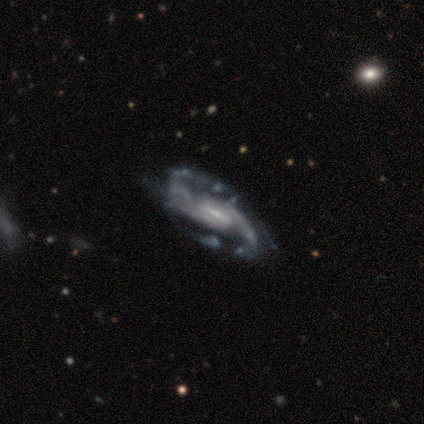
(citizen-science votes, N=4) smooth-or-featured: featured or disk: 100% | smooth: 0% | star or artifact: 0%
  disk-edge-on: no: 75% | yes: 25%
    bar: weak: 67% | strong: 33% | no: 0%
    has-spiral-arms: yes: 100% | no: 0%
      spiral-winding: medium: 67% | loose: 33% | tight: 0%
      spiral-arm-count: 2: 100% | 1: 0% | 3: 0% | 4: 0% | more than 4: 0% | can't tell: 0%
    bulge-size: small: 100% | dominant: 0% | large: 0% | moderate: 0% | none: 0%
  merging: minor disturbance: 75% | none: 25% | major disturbance: 0% | merger: 0%